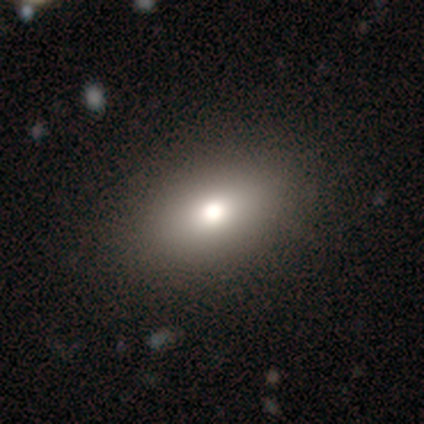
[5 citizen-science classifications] Q: Smooth or featured?
A: smooth (60%); runner-up: star or artifact (40%)
Q: How rounded?
A: in between (100%)
Q: Merging?
A: none (100%)